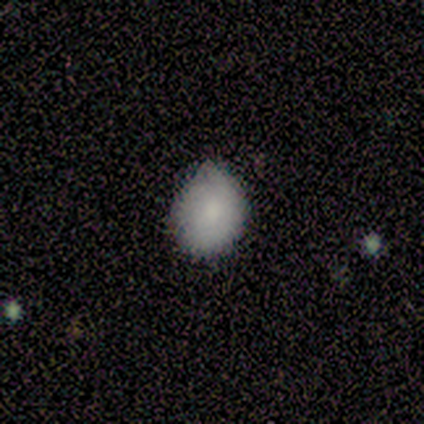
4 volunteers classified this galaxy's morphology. type=smooth (75%); roundness=in between (67%); merging=none (100%).